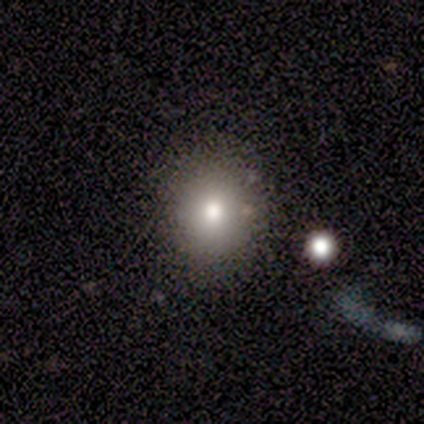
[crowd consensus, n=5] A smooth galaxy with no disk features (80%) that is round (75%).

Vote fractions:
- Smooth or featured? smooth: 80% / star or artifact: 20% / featured or disk: 0%
- How rounded? round: 75% / in between: 25% / cigar-shaped: 0%
- Merging? minor disturbance: 50% / none: 25% / merger: 25% / major disturbance: 0%